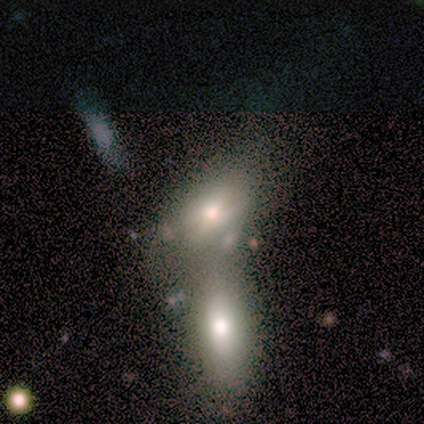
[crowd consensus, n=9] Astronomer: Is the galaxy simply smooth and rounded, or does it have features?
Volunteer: smooth — 100%.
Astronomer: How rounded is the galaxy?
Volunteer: in between — 100%.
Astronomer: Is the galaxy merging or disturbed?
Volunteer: merger — 89%.